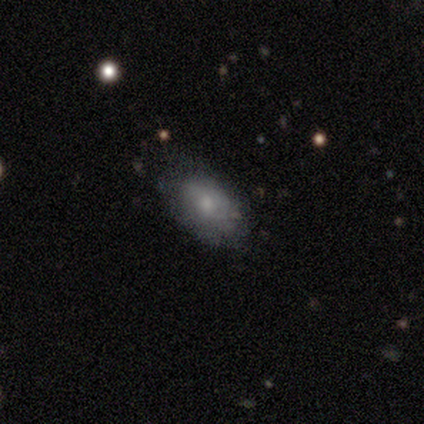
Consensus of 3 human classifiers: Volunteers were most divided on "smooth or featured": smooth: 67%, featured or disk: 33%, star or artifact: 0%. More confident: how rounded — in between (100%); merging — minor disturbance (67%).